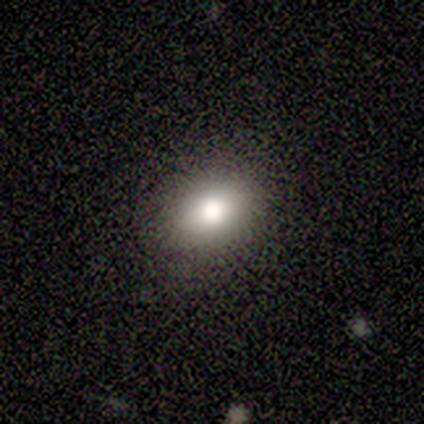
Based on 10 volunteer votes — smooth_or_featured: smooth (p=0.90) [alt: featured or disk p=0.10]
how_rounded: in between (p=0.67) [alt: round p=0.33]
merging: none (p=0.90) [alt: major disturbance p=0.10]